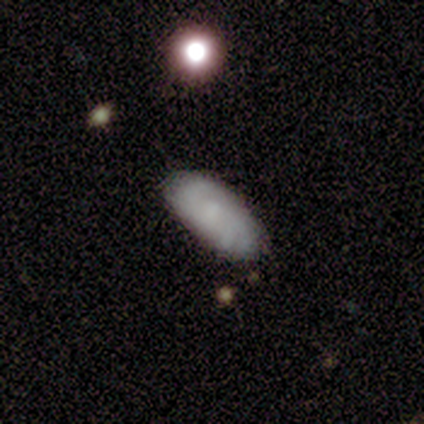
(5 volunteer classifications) This is likely a featured or disk galaxy (60%). It is clearly not viewed edge-on (100%). Bar: clearly no (100%). Spiral arm pattern: clearly yes (100%). Spiral arm count: likely 3 (67%). Spiral winding: likely tight (67%). Central bulge: marginally moderate (33%, tied with small and none). Merging: clearly none (100%).